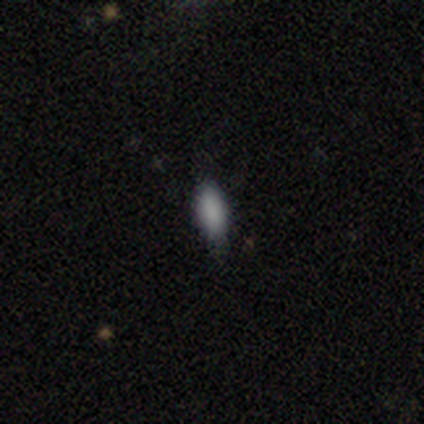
Smooth or featured?
  - smooth: 92% *
  - star or artifact: 5%
  - featured or disk: 3%
How rounded?
  - in between: 80% *
  - cigar-shaped: 20%
  - round: 0%
Merging?
  - none: 61% *
  - minor disturbance: 36%
  - major disturbance: 3%
  - merger: 0%